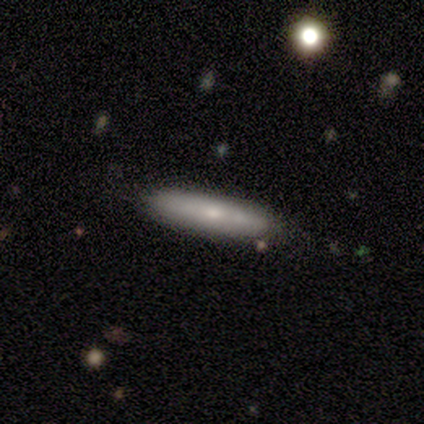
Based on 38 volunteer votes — Q: Smooth or featured?
A: smooth (71%); runner-up: featured or disk (26%)
Q: How rounded?
A: cigar-shaped (70%); runner-up: in between (30%)
Q: Merging?
A: none (78%); runner-up: minor disturbance (19%)